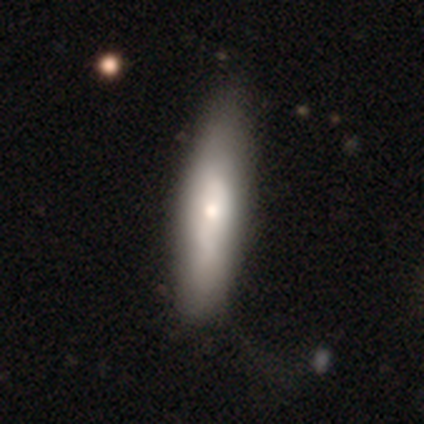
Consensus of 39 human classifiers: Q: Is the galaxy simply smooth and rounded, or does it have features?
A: smooth — 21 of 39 (54%).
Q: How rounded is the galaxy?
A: cigar-shaped — 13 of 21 (62%).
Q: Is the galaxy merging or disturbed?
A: none — 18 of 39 (46%).